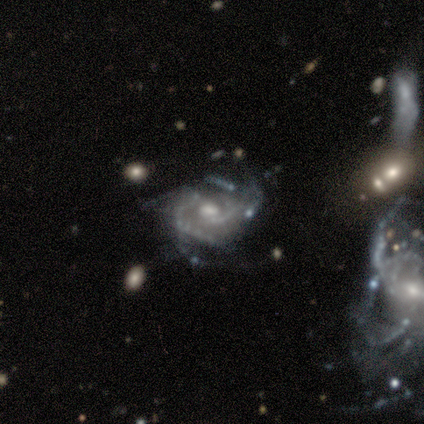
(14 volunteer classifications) Smooth or featured? featured or disk (93%)
Edge-on disk? no (92%)
Bar? weak (58%)
Spiral arms? yes (100%)
Spiral winding? tight (58%)
Spiral arm count? 2 (33%, tied with can't tell)
Bulge size? moderate (50%)
Merging? none (77%)